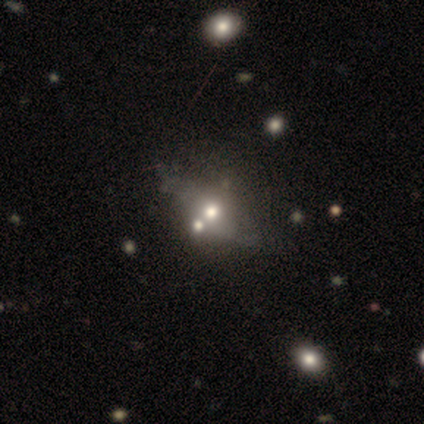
Volunteers were most divided on "merging": merger: 44%, none: 38%, major disturbance: 3%, minor disturbance: 0%. Remaining: how rounded — in between (68%); smooth or featured — smooth (49%).